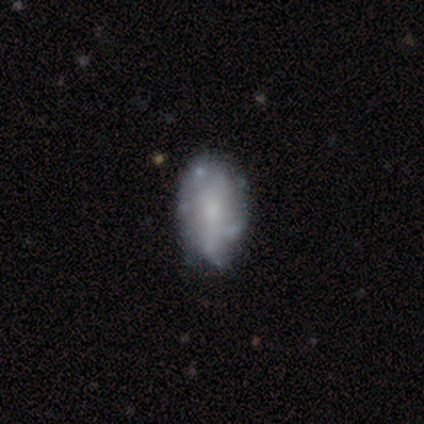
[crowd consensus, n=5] Morphology: type=featured or disk (80%); edge-on=no (100%); bar=no (100%); spiral arms=no (100%); bulge=small (100%); merging=none (60%).